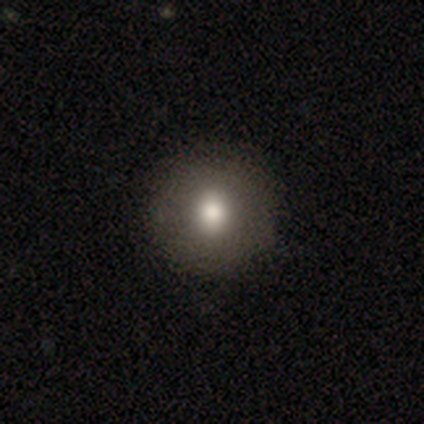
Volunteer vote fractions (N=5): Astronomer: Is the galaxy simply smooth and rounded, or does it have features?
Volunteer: smooth — 40%, tied with star or artifact at 40%.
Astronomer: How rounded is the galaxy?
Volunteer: round — 100%.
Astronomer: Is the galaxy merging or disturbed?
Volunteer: none — 100%.